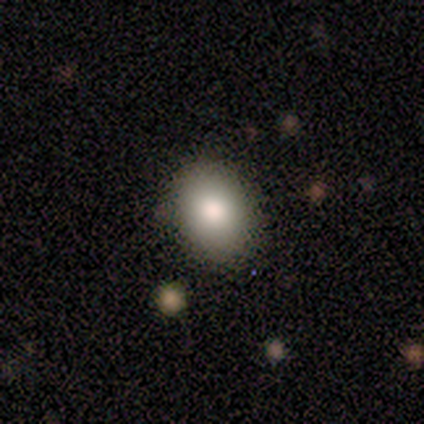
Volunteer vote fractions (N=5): Morphology: type=smooth (80%); roundness=round (50%, tied with in between); merging=none (60%).